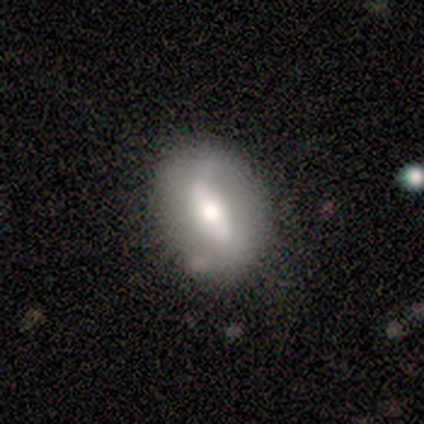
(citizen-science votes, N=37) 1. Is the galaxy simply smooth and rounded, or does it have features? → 68% smooth, 30% featured or disk, 3% star or artifact.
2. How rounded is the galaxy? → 68% in between, 28% round, 4% cigar-shaped.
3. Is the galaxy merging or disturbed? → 86% none, 8% minor disturbance, 6% major disturbance, 0% merger.